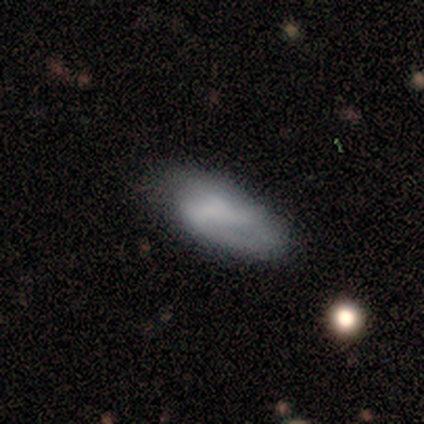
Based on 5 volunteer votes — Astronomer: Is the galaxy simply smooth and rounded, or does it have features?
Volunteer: smooth — 80%.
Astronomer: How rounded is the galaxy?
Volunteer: in between — 100%.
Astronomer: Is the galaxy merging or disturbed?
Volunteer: none — 60% (runner-up: minor disturbance, 40%).